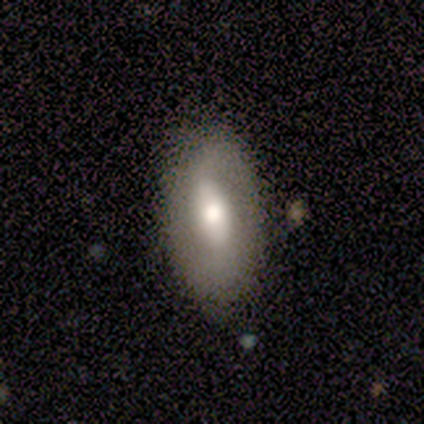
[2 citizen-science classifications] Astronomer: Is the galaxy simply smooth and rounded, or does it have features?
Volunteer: smooth — 50%, tied with featured or disk at 50%.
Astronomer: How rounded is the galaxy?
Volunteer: in between — 100%.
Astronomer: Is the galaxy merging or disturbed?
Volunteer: none — 100%.